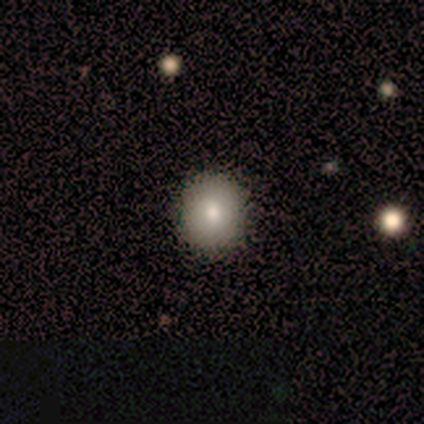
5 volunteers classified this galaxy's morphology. Smooth or featured? 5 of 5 (100%) said smooth. How rounded? 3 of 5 (60%) said round. Merging? 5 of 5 (100%) said none.